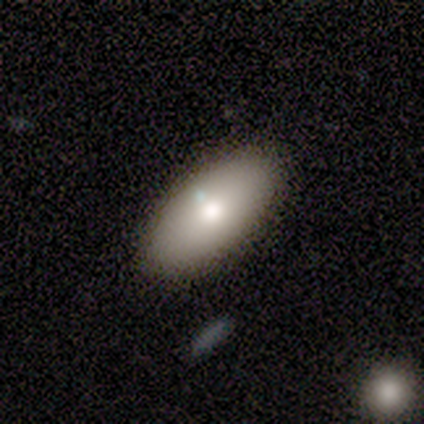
smooth_or_featured: smooth (p=1.00)
how_rounded: in between (p=0.80) [alt: round p=0.20]
merging: none (p=1.00)